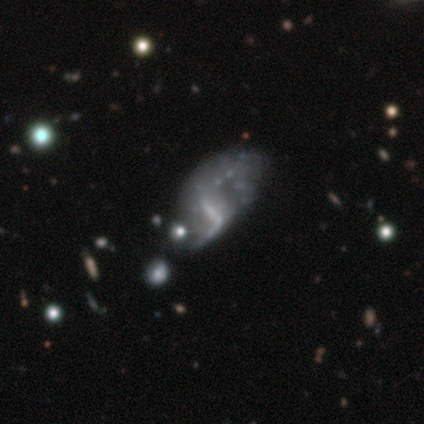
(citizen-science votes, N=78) This appears to be a featured or disk galaxy (83%) with no bar (37%), no spiral arms (65%) and no central bulge (66%). Merging: major disturbance (23%).